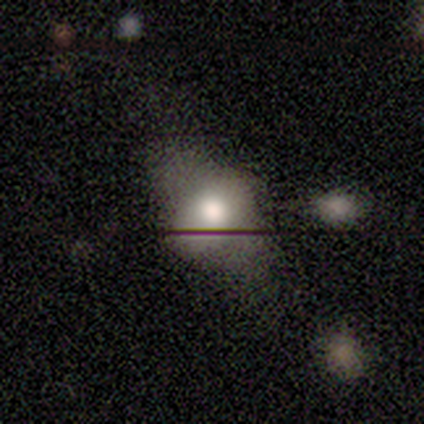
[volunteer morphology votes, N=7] This is marginally a featured or disk galaxy (43%). It is likely not viewed edge-on (67%). Bar: clearly no (100%). Spiral arm pattern: clearly no (100%). Central bulge: clearly moderate (100%). Merging: marginally none (40%, tied with major disturbance).